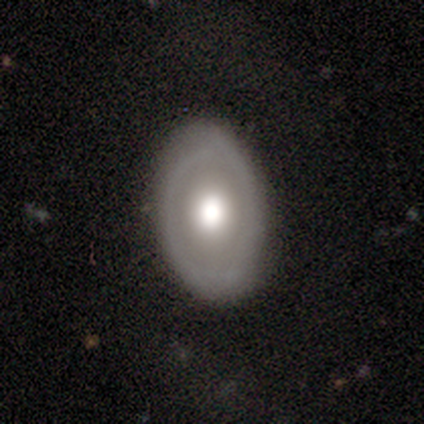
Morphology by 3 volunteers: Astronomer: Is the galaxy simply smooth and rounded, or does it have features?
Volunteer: smooth — 67%.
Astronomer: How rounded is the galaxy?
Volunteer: in between — 100%.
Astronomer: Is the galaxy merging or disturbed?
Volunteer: none — 67%.